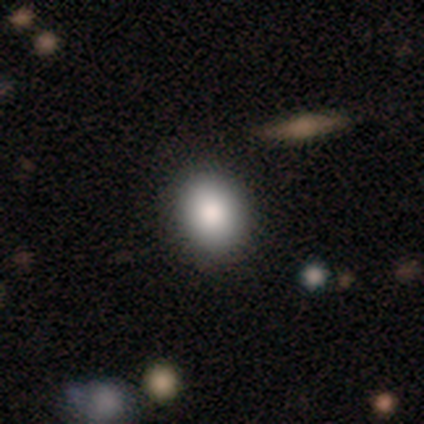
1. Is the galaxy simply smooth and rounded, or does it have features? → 100% smooth, 0% featured or disk, 0% star or artifact.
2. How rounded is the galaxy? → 80% round, 20% in between, 0% cigar-shaped.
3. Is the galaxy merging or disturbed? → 100% none, 0% minor disturbance, 0% major disturbance, 0% merger.